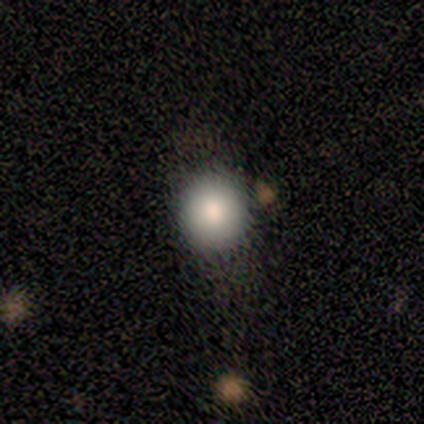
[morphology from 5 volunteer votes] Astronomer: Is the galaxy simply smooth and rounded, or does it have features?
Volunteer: smooth — 100%.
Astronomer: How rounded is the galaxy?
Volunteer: round — 80%.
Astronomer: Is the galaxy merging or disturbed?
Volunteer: none — 60% (runner-up: major disturbance, 40%).